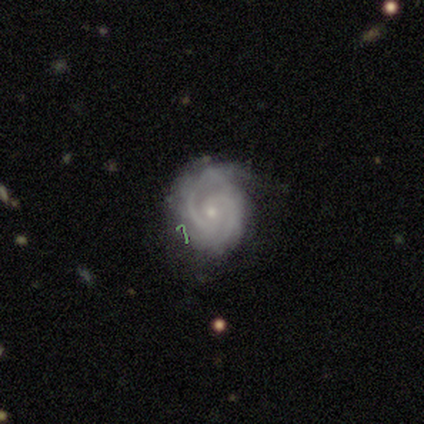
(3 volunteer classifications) smooth_or_featured: featured or disk (p=0.67) [alt: smooth p=0.33]
disk_edge_on: no (p=1.00)
bar: no (p=1.00)
has_spiral_arms: yes (p=1.00)
spiral_winding: tight (p=1.00)
spiral_arm_count: 2 (p=0.50) [tied with: can't tell p=0.50]
bulge_size: small (p=1.00)
merging: none (p=0.67) [alt: minor disturbance p=0.33]